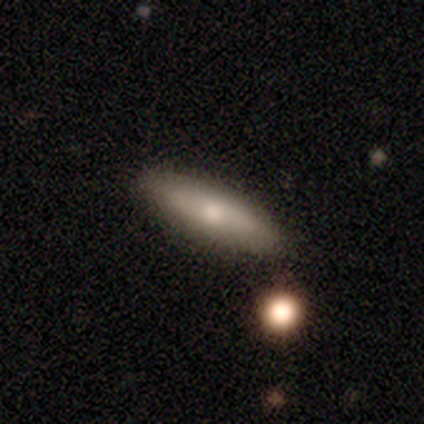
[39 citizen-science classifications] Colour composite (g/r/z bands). It shows a smooth galaxy with no disk features (69%) that is cigar-shaped (56%). Merging: none (92%).